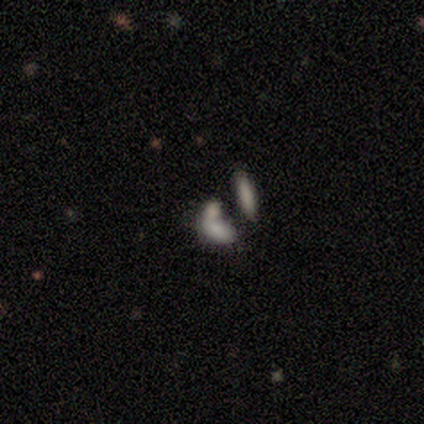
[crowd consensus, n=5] A smooth galaxy with no disk features (40%, tied with featured or disk) that is in between round and cigar-shaped (100%).

Vote fractions:
- Smooth or featured? smooth: 40% (tied) / featured or disk: 40% (tied) / star or artifact: 20%
- How rounded? in between: 100% / round: 0% / cigar-shaped: 0%
- Merging? minor disturbance: 50% / none: 25% / merger: 25% / major disturbance: 0%